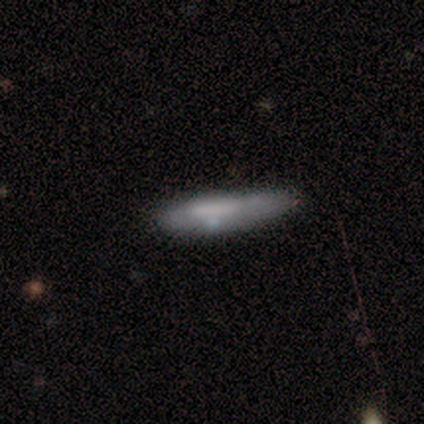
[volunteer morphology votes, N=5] smooth 60%, featured or disk 40%, star or artifact 0%. Down the decision tree: how rounded — cigar-shaped (67%); merging — none (40%, tied with minor disturbance).